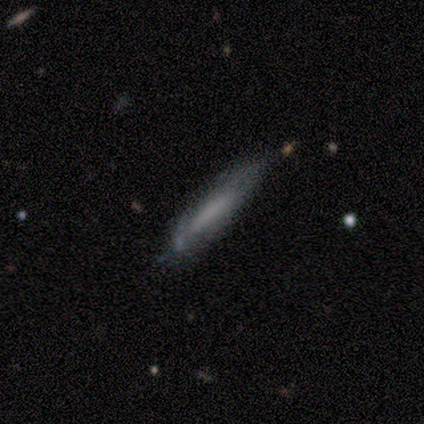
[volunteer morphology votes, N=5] A smooth galaxy with no disk features (60%) that is cigar-shaped (67%).

Vote fractions:
- Smooth or featured? smooth: 60% / featured or disk: 40% / star or artifact: 0%
- How rounded? cigar-shaped: 67% / in between: 33% / round: 0%
- Merging? minor disturbance: 80% / none: 20% / major disturbance: 0% / merger: 0%